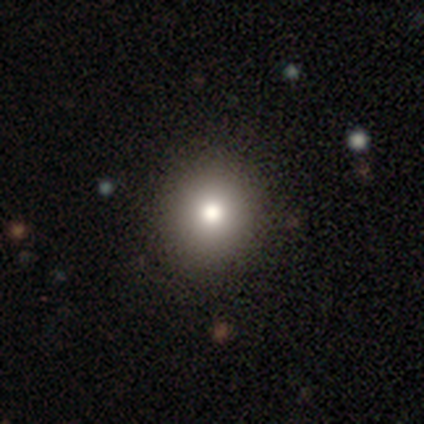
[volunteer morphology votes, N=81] This is likely a smooth galaxy (74%). How rounded: clearly round (92%). Merging: clearly none (90%).